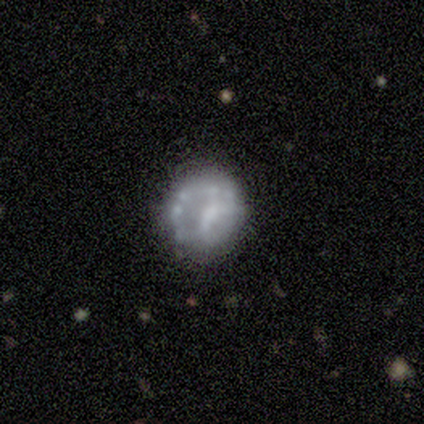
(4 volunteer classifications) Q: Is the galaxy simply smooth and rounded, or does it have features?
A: featured or disk — 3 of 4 (75%).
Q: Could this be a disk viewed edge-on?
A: no — 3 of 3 (100%).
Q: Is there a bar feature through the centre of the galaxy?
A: no — 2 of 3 (67%).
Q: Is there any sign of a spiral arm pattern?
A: no — 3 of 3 (100%).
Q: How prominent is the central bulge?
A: none — 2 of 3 (67%).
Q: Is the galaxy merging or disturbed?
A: none — 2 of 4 (50%, tied with minor disturbance).